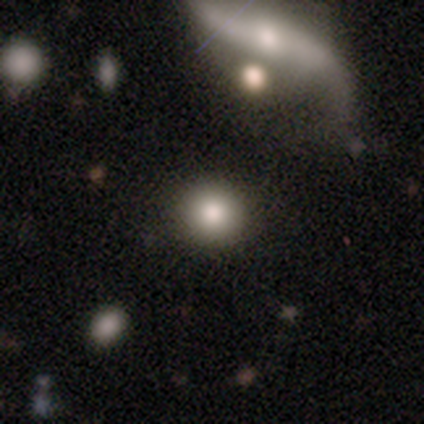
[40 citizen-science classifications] A smooth galaxy with no disk features (85%) that is round (97%). Merging: none (86%).